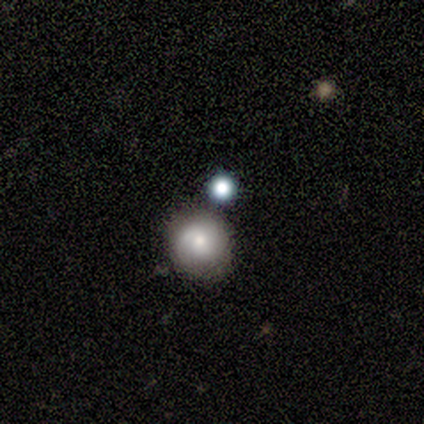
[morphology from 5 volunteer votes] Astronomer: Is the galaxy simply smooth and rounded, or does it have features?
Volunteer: smooth — 80%.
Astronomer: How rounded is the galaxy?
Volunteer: round — 75%.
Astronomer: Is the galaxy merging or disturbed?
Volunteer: none — 60%.